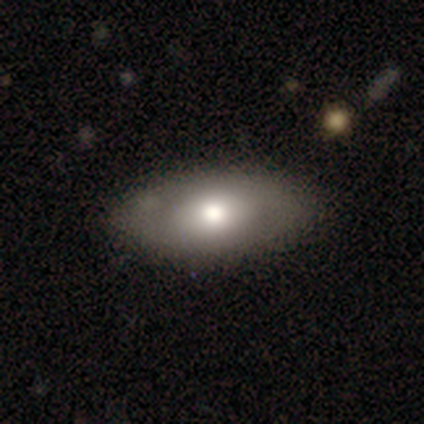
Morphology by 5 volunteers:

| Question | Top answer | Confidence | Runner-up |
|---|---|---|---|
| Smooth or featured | smooth | 60% | featured or disk (40%) |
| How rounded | in between | 100% | — |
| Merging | minor disturbance | 60% | none (40%) |